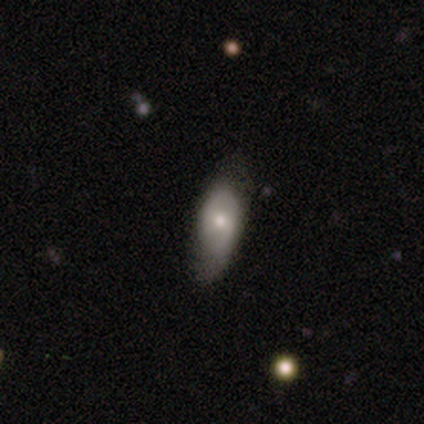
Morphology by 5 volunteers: A smooth galaxy with no disk features (80%) that is in between round and cigar-shaped (100%). Merging: none (80%).